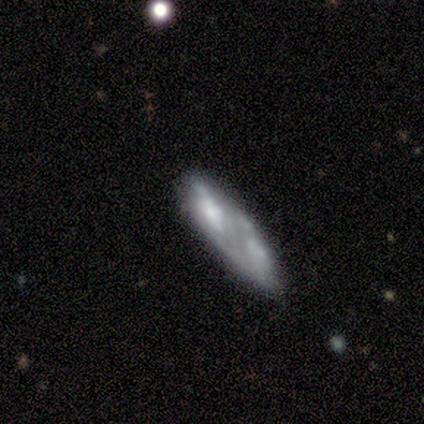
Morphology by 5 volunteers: A smooth galaxy with no disk features (40%, tied with featured or disk) that is in between round and cigar-shaped (50%, tied with cigar-shaped).

Vote fractions:
- Smooth or featured? smooth: 40% (tied) / featured or disk: 40% (tied) / star or artifact: 20%
- How rounded? in between: 50% (tied) / cigar-shaped: 50% (tied) / round: 0%
- Merging? major disturbance: 50% / none: 25% / merger: 25% / minor disturbance: 0%